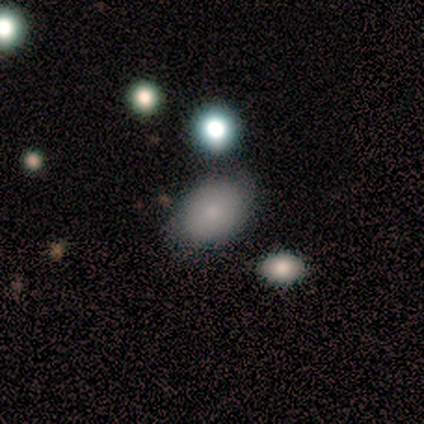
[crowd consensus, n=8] Volunteers were most divided on "smooth or featured": smooth: 75%, star or artifact: 25%, featured or disk: 0%. More confident: how rounded — in between (83%); merging — none (67%).